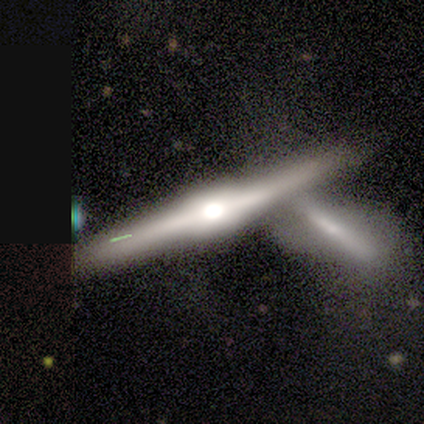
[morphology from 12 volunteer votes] featured or disk 83%, smooth 8%, star or artifact 8%. Down the decision tree: edge-on disk — yes (100%); edge-on bulge — rounded (90%); merging — merger (45%).